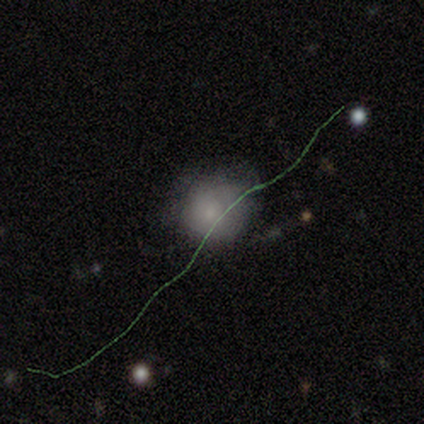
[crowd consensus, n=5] A smooth galaxy with no disk features (80%) that is round (100%).

Vote fractions:
- Smooth or featured? smooth: 80% / featured or disk: 20% / star or artifact: 0%
- How rounded? round: 100% / in between: 0% / cigar-shaped: 0%
- Merging? none: 60% / minor disturbance: 40% / major disturbance: 0% / merger: 0%